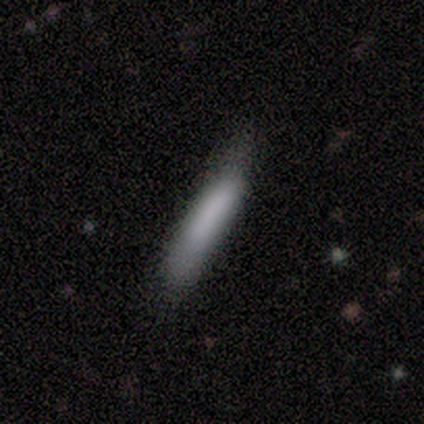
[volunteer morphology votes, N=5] type=smooth (80%); roundness=in between (50%, tied with cigar-shaped); merging=none (60%).